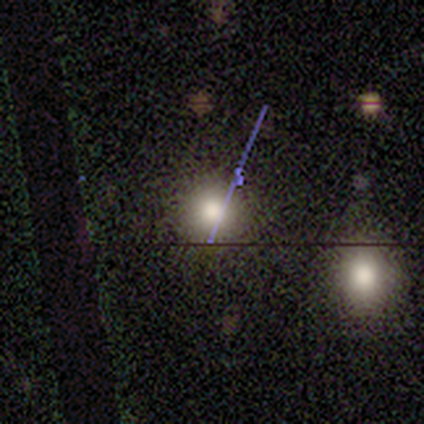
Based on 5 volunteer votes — Smooth or featured? star or artifact (60%)